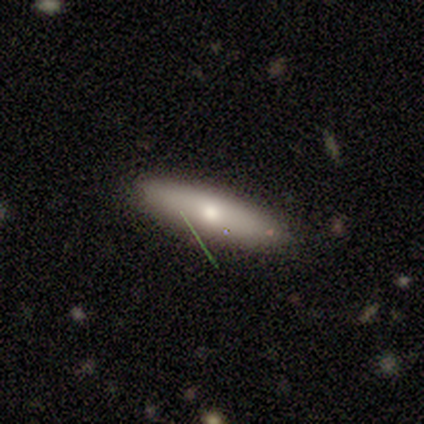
This appears to be a smooth galaxy with no disk features (60%) that is cigar-shaped (67%). Merging: none (100%).